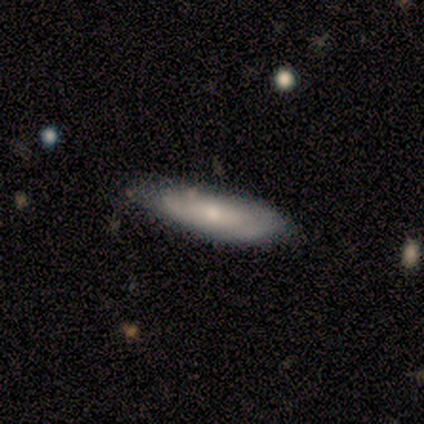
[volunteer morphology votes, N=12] smooth_or_featured: smooth (p=0.58) [alt: featured or disk p=0.25]
how_rounded: cigar-shaped (p=0.86) [alt: in between p=0.14]
merging: none (p=0.80) [alt: minor disturbance p=0.10]